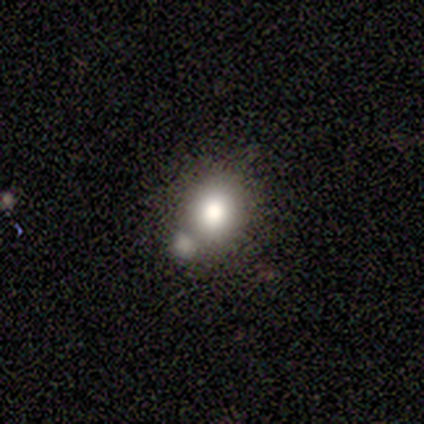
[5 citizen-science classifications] Smooth or featured: smooth — 60% (star or artifact — 40%)
How rounded: round — 67% (in between — 33%)
Merging: none — 33% (tied with minor disturbance — 33%; merger — 33%)